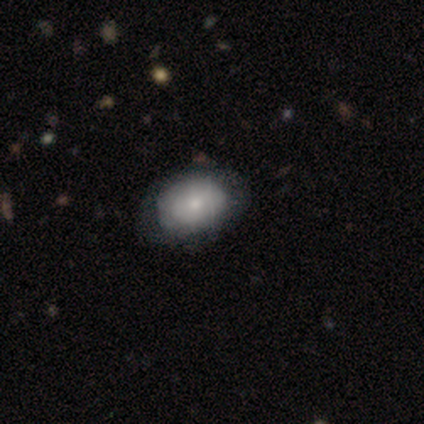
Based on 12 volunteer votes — A smooth galaxy with no disk features (67%) that is in between round and cigar-shaped (62%).

Vote fractions:
- Smooth or featured? smooth: 67% / featured or disk: 25% / star or artifact: 8%
- How rounded? in between: 62% / round: 38% / cigar-shaped: 0%
- Merging? none: 73% / minor disturbance: 27% / major disturbance: 0% / merger: 0%